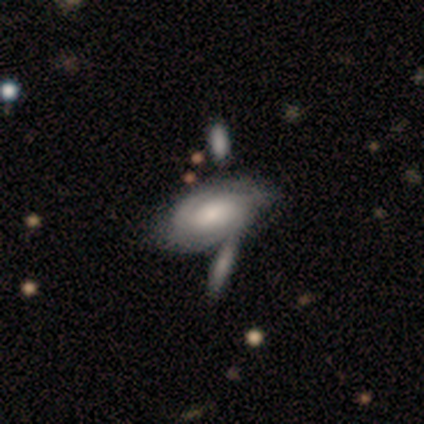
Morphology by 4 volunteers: Smooth or featured?
  - featured or disk: 100% *
  - smooth: 0%
  - star or artifact: 0%
Edge-on disk?
  - no: 100% *
  - yes: 0%
Bar?
  - no: 75% *
  - weak: 25%
  - strong: 0%
Spiral arms?
  - yes: 50% * (tied)
  - no: 50% * (tied)
Spiral winding?
  - tight: 50% * (tied)
  - medium: 50% * (tied)
  - loose: 0%
Spiral arm count?
  - 2: 100% *
  - 1: 0%
  - 3: 0%
  - 4: 0%
  - more than 4: 0%
  - can't tell: 0%
Bulge size?
  - small: 75% *
  - large: 25%
  - dominant: 0%
  - moderate: 0%
  - none: 0%
Merging?
  - merger: 50% *
  - none: 25%
  - minor disturbance: 25%
  - major disturbance: 0%